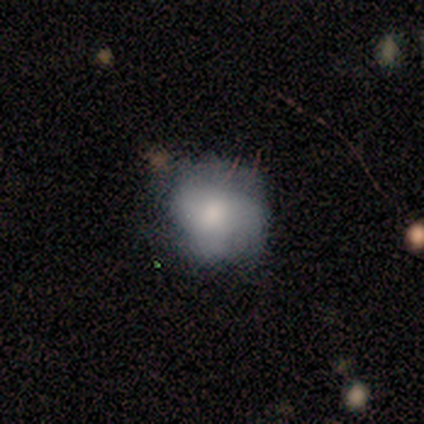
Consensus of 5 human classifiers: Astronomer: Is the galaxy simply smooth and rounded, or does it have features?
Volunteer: smooth — 60% (runner-up: featured or disk, 40%).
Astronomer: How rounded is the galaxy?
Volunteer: round — 100%.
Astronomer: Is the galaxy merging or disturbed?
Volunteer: none — 60%.